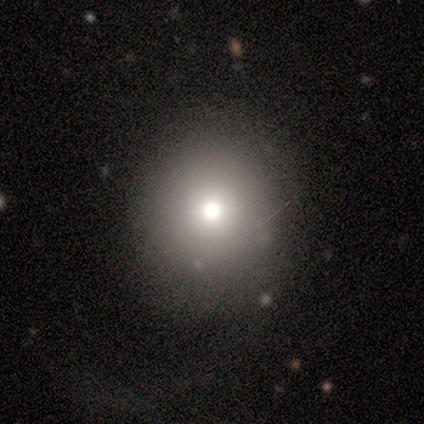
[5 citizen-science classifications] Morphology: type=smooth (60%); roundness=round (100%); merging=none (60%).